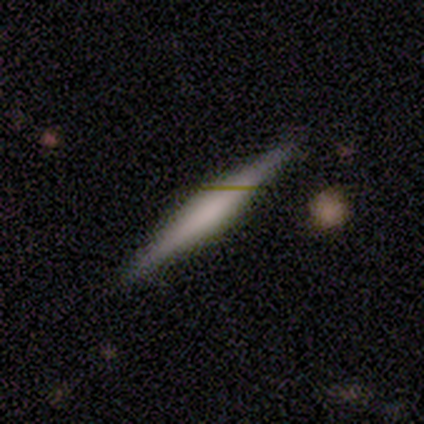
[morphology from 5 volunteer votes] smooth-or-featured: featured or disk: 100% | smooth: 0% | star or artifact: 0%
  disk-edge-on: yes: 100% | no: 0%
    edge-on-bulge: boxy: 60% | rounded: 40% | none: 0%
  merging: none: 100% | minor disturbance: 0% | major disturbance: 0% | merger: 0%